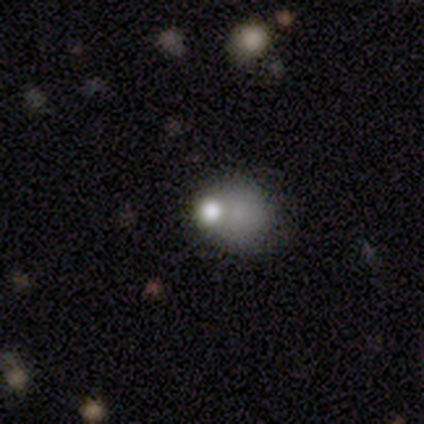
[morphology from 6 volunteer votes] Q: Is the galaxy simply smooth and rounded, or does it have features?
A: smooth — 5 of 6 (83%).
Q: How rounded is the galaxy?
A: round — 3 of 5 (60%).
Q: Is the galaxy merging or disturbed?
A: major disturbance — 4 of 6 (67%).